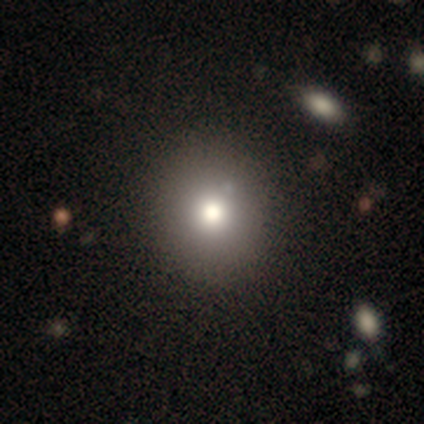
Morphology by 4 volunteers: A smooth galaxy with no disk features (75%) that is round (100%).

Vote fractions:
- Smooth or featured? smooth: 75% / star or artifact: 25% / featured or disk: 0%
- How rounded? round: 100% / in between: 0% / cigar-shaped: 0%
- Merging? none: 100% / minor disturbance: 0% / major disturbance: 0% / merger: 0%